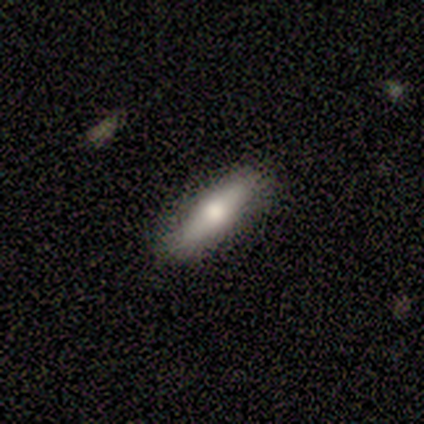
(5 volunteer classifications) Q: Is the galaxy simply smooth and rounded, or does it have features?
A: smooth — 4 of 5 (80%).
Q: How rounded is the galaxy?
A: cigar-shaped — 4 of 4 (100%).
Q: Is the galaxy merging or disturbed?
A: none — 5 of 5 (100%).